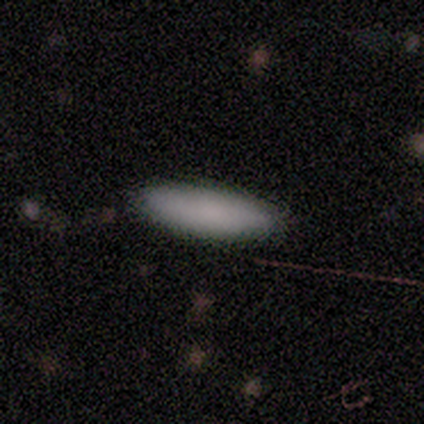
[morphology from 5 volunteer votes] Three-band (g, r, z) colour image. It shows a smooth galaxy with no disk features (80%) that is in between round and cigar-shaped (50%, tied with cigar-shaped). Merging: none (75%).